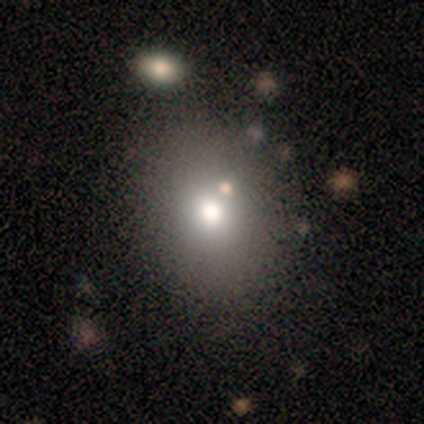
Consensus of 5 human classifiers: smooth-or-featured: smooth: 60% | featured or disk: 20% | star or artifact: 20%
  how-rounded: round: 100% | in between: 0% | cigar-shaped: 0%
  merging: none: 75% | minor disturbance: 25% | major disturbance: 0% | merger: 0%